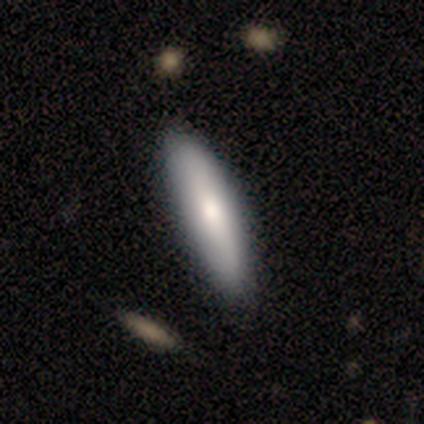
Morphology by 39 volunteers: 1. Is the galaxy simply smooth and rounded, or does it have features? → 72% smooth, 23% featured or disk, 5% star or artifact.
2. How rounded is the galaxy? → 82% cigar-shaped, 18% in between, 0% round.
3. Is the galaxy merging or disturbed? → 84% none, 16% minor disturbance, 0% major disturbance, 0% merger.